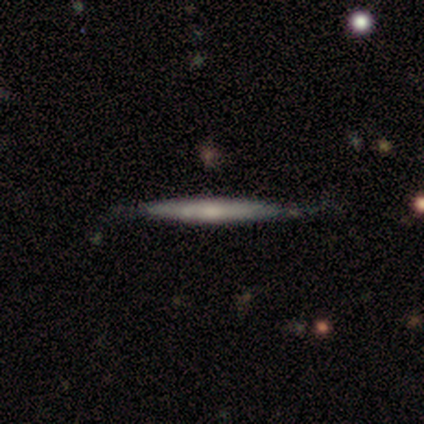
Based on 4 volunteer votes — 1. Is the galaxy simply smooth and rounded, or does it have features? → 75% smooth, 25% featured or disk, 0% star or artifact.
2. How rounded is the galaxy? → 100% cigar-shaped, 0% round, 0% in between.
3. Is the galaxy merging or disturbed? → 50% none (tied), 50% minor disturbance (tied), 0% major disturbance, 0% merger.